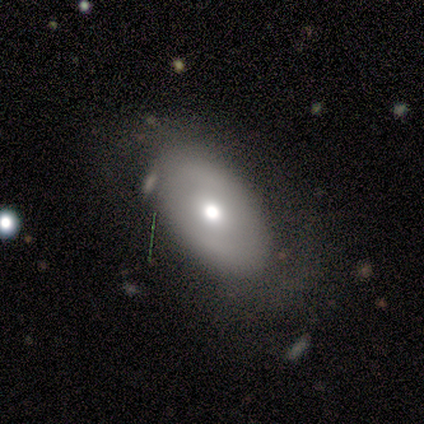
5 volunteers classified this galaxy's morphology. Q: Smooth or featured?
A: smooth (60%); runner-up: featured or disk (40%)
Q: How rounded?
A: in between (100%)
Q: Merging?
A: none (40%); runner-up: minor disturbance (20%)